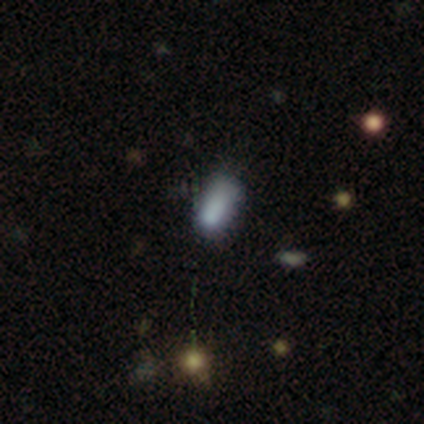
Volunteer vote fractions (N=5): A smooth galaxy with no disk features (60%) that is in between round and cigar-shaped (67%). Merging: none (50%, tied with minor disturbance).